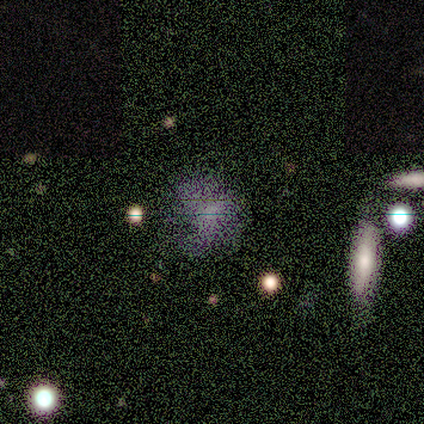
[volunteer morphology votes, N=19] This is marginally a featured or disk galaxy (42%). It is clearly not viewed edge-on (100%). Bar: clearly no (100%). Spiral arm pattern: likely no (75%). Central bulge: likely none (62%). Merging: marginally none (40%).